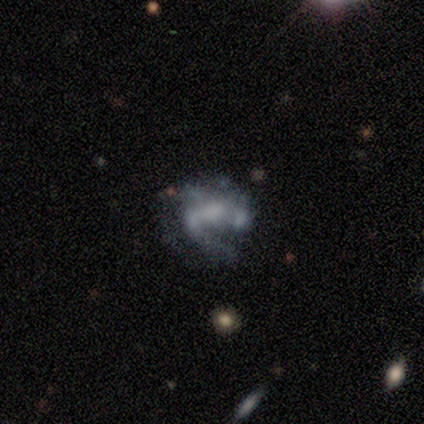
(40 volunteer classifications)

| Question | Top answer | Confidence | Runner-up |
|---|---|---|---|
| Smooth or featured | featured or disk | 75% | smooth (15%) |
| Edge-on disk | no | 100% | — |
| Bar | no | 63% | weak (30%) |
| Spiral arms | yes | 53% | no (47%) |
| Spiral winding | loose | 69% | tight (19%) |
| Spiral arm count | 1 | 44% | can't tell (38%) |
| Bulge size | none | 57% | large (17%) |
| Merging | major disturbance | 53% | none (22%) |